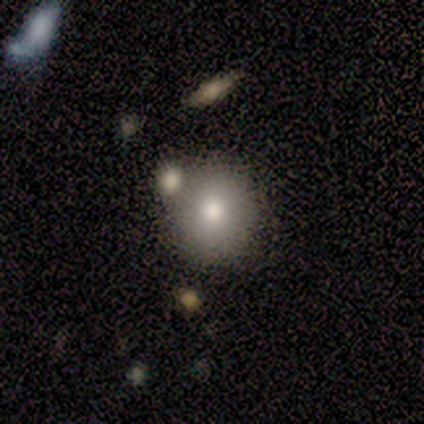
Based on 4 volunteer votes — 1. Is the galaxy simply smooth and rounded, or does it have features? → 100% smooth, 0% featured or disk, 0% star or artifact.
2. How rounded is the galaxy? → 75% round, 25% in between, 0% cigar-shaped.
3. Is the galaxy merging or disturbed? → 75% none, 25% merger, 0% minor disturbance, 0% major disturbance.